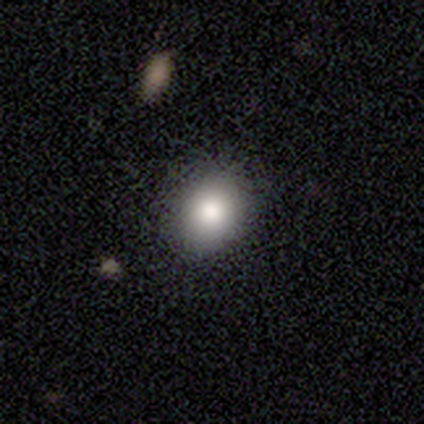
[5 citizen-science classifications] smooth_or_featured: smooth (p=0.60) [alt: star or artifact p=0.40]
how_rounded: round (p=0.67) [alt: in between p=0.33]
merging: none (p=1.00)